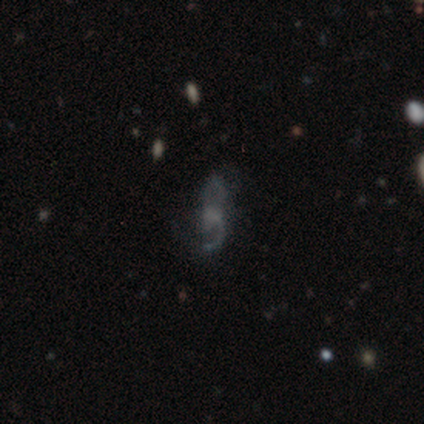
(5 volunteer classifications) Smooth or featured? featured or disk (60%)
Edge-on disk? no (100%)
Bar? no (67%)
Spiral arms? yes (67%)
Spiral winding? medium (50%, tied with loose)
Spiral arm count? 2 (100%)
Bulge size? none (100%)
Merging? none (75%)